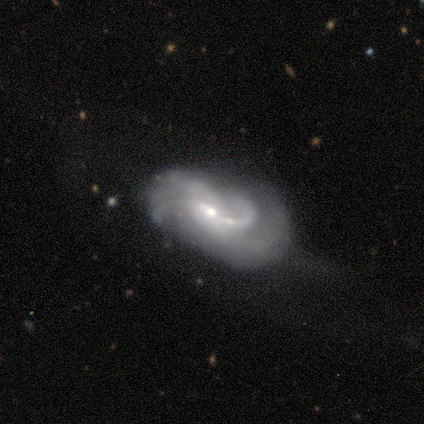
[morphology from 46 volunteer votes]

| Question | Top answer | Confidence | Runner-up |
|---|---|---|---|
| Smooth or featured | featured or disk | 87% | smooth (9%) |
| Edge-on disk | no | 100% | — |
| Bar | weak | 50% | no (35%) |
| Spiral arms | yes | 98% | no (2%) |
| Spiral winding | medium | 38% | tied: loose (38%) |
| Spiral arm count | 2 | 38% | 1 (21%) |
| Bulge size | small | 62% | moderate (35%) |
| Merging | major disturbance | 36% | minor disturbance (27%) |